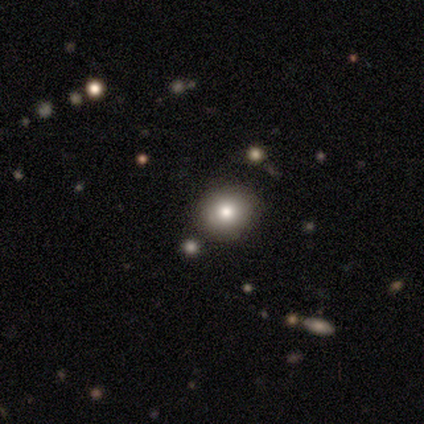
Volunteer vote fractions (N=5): smooth 60%, featured or disk 20%, star or artifact 20%. Down the decision tree: how rounded — round (67%); merging — none (100%).